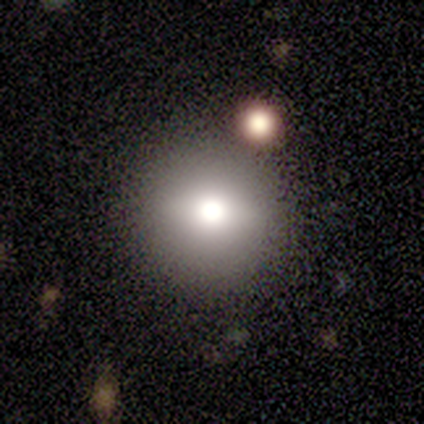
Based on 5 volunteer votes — Smooth or featured?
  - smooth: 80% *
  - featured or disk: 20%
  - star or artifact: 0%
How rounded?
  - round: 100% *
  - in between: 0%
  - cigar-shaped: 0%
Merging?
  - none: 60% *
  - minor disturbance: 20%
  - merger: 20%
  - major disturbance: 0%